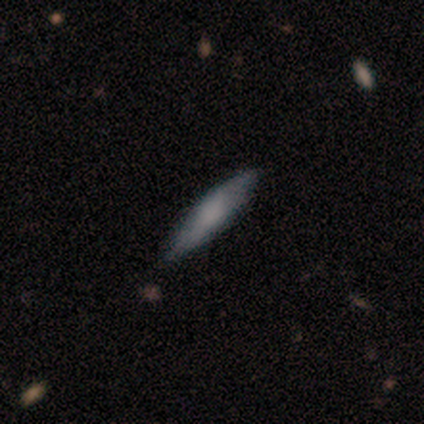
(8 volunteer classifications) Volunteers were most divided on "smooth or featured": smooth: 75%, featured or disk: 25%, star or artifact: 0%. More confident: how rounded — cigar-shaped (83%); merging — none (75%).